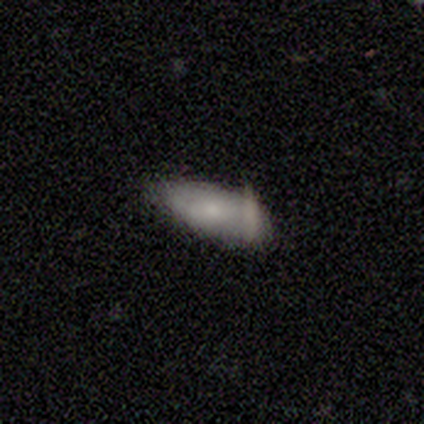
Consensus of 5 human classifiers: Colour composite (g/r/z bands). It shows a smooth galaxy with no disk features (60%) that is in between round and cigar-shaped (67%). Merging: none (40%, tied with minor disturbance).